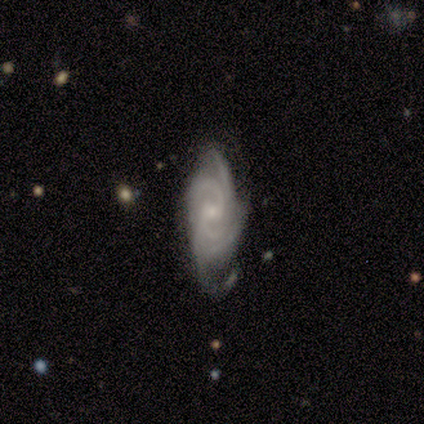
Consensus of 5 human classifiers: featured or disk 100%, smooth 0%, star or artifact 0%. Down the decision tree: edge-on disk — no (100%); bar — no (60%); spiral arms — yes (100%); spiral arm count — more than 4 (40%, tied with can't tell); spiral winding — tight (80%); bulge size — small (80%); merging — none (40%).